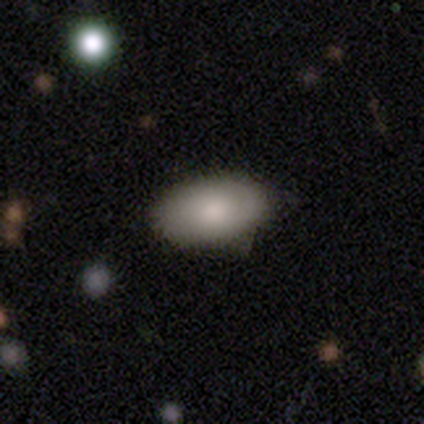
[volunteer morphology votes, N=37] Smooth or featured?
  - smooth: 81% *
  - featured or disk: 16%
  - star or artifact: 3%
How rounded?
  - in between: 97% *
  - round: 3%
  - cigar-shaped: 0%
Merging?
  - none: 69% *
  - minor disturbance: 31%
  - major disturbance: 0%
  - merger: 0%